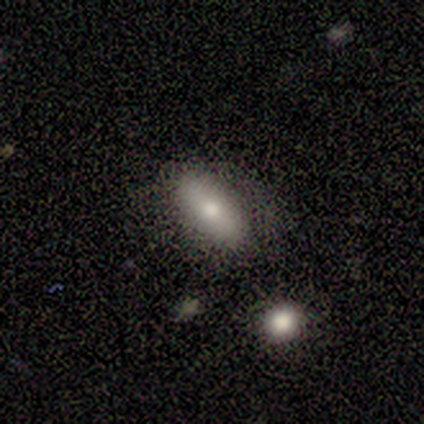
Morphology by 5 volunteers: This appears to be a smooth galaxy with no disk features (60%) that is in between round and cigar-shaped (67%). Merging: none (75%).